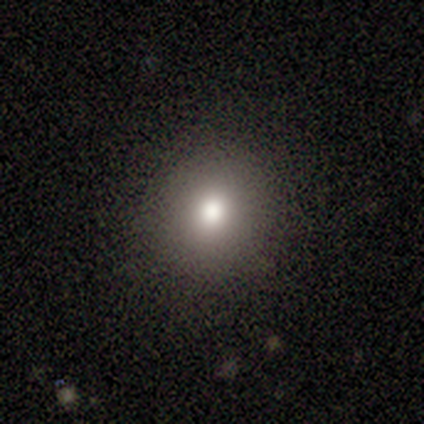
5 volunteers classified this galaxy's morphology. Volunteers were most divided on "merging": none: 80%, minor disturbance: 20%, major disturbance: 0%, merger: 0%. More confident: smooth or featured — smooth (100%); how rounded — round (100%).